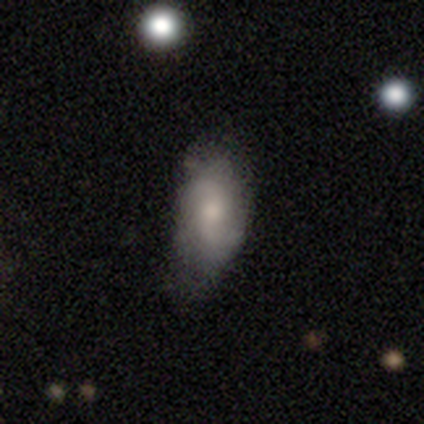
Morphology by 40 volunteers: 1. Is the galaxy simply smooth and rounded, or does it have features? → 52% featured or disk, 40% smooth, 8% star or artifact.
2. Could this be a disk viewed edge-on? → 100% no, 0% yes.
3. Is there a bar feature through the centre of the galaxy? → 52% weak, 29% no, 19% strong.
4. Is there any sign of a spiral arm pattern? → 86% yes, 14% no.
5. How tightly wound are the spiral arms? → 56% medium, 33% loose, 11% tight.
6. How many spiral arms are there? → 78% 2, 11% can't tell, 6% 1, 6% 3, 0% 4, 0% more than 4.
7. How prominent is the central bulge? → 48% small, 43% moderate, 5% large, 5% none, 0% dominant.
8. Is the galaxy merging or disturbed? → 38% none, 22% minor disturbance, 5% major disturbance, 0% merger.